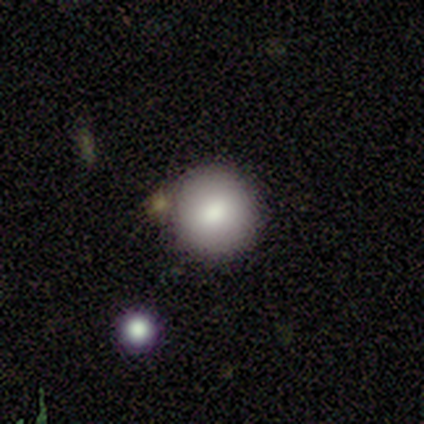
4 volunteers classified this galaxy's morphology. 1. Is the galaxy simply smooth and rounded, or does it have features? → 75% smooth, 25% featured or disk, 0% star or artifact.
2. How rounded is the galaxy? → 100% round, 0% in between, 0% cigar-shaped.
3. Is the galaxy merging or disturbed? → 100% none, 0% minor disturbance, 0% major disturbance, 0% merger.